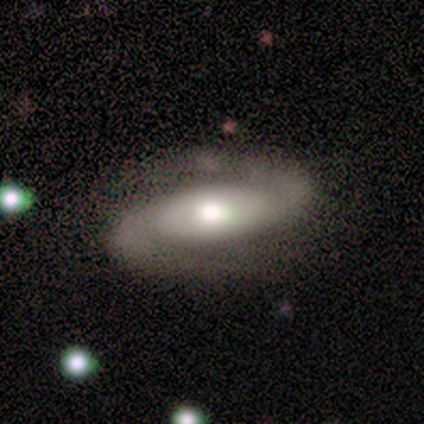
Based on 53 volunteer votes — This is clearly a featured or disk galaxy (89%). It is clearly not viewed edge-on (94%). Bar: marginally no (43%). Spiral arm pattern: clearly yes (100%). Spiral arm count: clearly 2 (100%). Spiral winding: marginally medium (43%). Central bulge: possibly moderate (59%). Merging: likely none (77%).